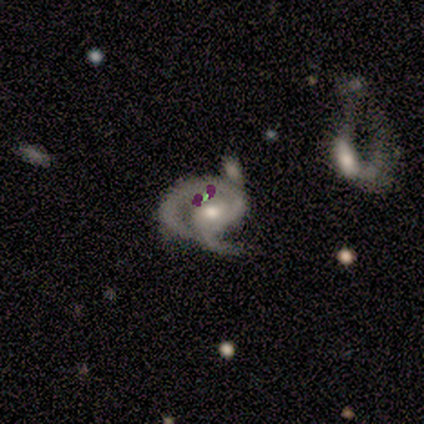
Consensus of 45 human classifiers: This appears to be a featured or disk galaxy (80%) with no bar (51%), 2 (65%) medium (50%) spiral arms (97%) and a moderate central bulge (69%). Merging: minor disturbance (38%).